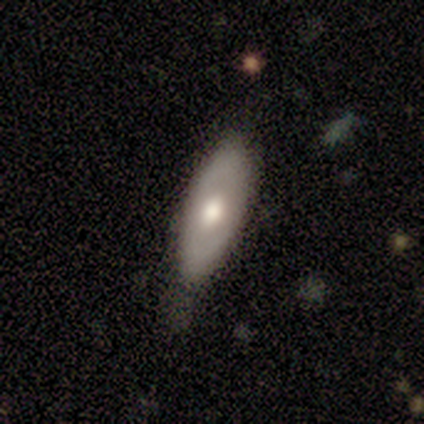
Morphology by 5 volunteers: Smooth or featured: smooth — 100%
How rounded: in between — 100%
Merging: minor disturbance — 60% (none — 40%)